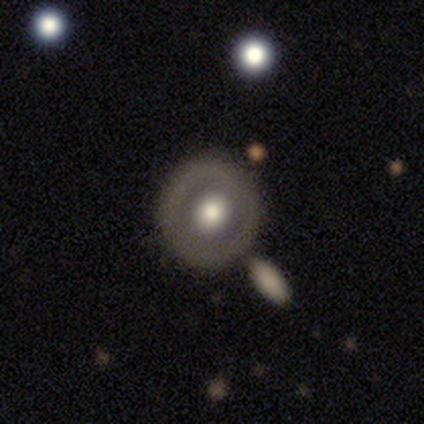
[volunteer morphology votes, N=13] Smooth or featured: smooth — 46% (featured or disk — 38%)
How rounded: round — 100%
Merging: none — 91% (minor disturbance — 9%)